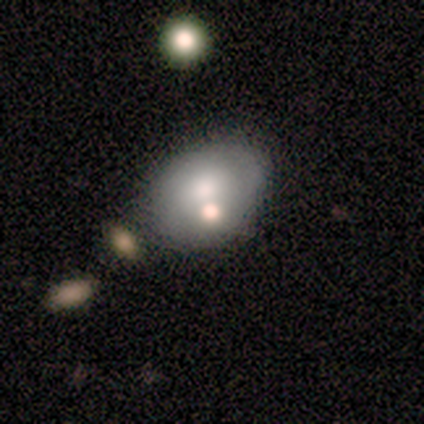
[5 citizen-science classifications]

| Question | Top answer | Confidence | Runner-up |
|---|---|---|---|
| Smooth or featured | featured or disk | 40% | tied: star or artifact (40%) |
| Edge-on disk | no | 100% | — |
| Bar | no | 100% | — |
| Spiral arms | no | 100% | — |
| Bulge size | large | 50% | tied: moderate (50%) |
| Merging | none | 100% | — |